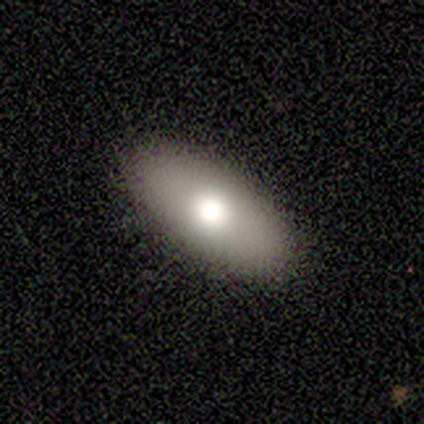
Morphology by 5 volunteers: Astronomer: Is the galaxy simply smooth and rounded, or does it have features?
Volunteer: smooth — 80%.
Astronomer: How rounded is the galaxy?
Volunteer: in between — 100%.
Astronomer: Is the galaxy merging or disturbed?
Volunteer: none — 100%.